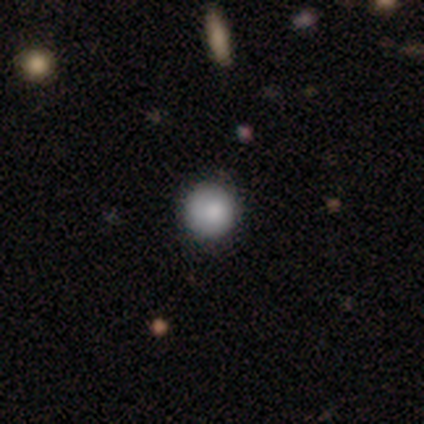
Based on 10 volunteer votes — Overall: smooth (70%). How rounded: round (71%). Merging: none (78%).